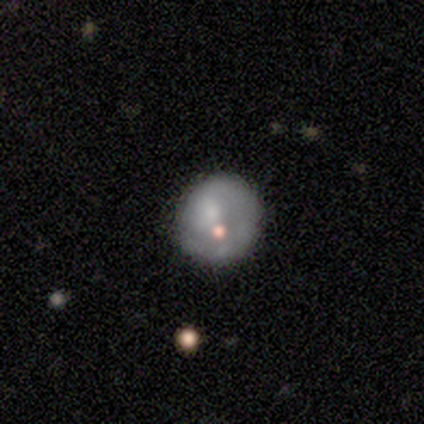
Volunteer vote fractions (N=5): Q: Smooth or featured?
A: smooth (60%); runner-up: featured or disk (40%)
Q: How rounded?
A: round (100%)
Q: Merging?
A: none (80%); runner-up: minor disturbance (20%)